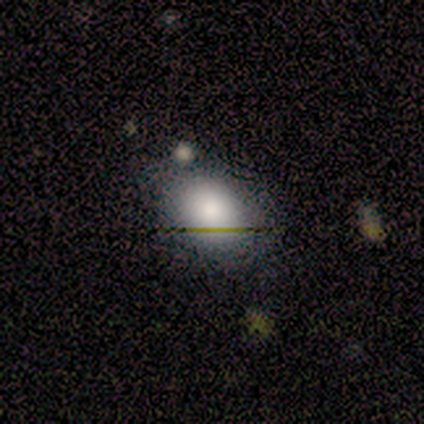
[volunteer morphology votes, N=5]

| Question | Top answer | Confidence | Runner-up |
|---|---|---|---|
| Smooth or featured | smooth | 80% | featured or disk (20%) |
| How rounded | in between | 100% | — |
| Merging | none | 80% | minor disturbance (20%) |